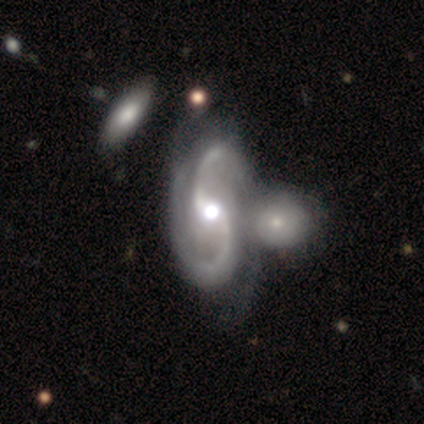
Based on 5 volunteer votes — smooth-or-featured: featured or disk: 80% | star or artifact: 20% | smooth: 0%
  disk-edge-on: no: 100% | yes: 0%
    bar: no: 50% | strong: 25% | weak: 25%
    has-spiral-arms: yes: 75% | no: 25%
      spiral-winding: loose: 67% | tight: 33% | medium: 0%
      spiral-arm-count: 2: 100% | 1: 0% | 3: 0% | 4: 0% | more than 4: 0% | can't tell: 0%
    bulge-size: moderate: 75% | none: 25% | dominant: 0% | large: 0% | small: 0%
  merging: merger: 50% | minor disturbance: 25% | major disturbance: 25% | none: 0%